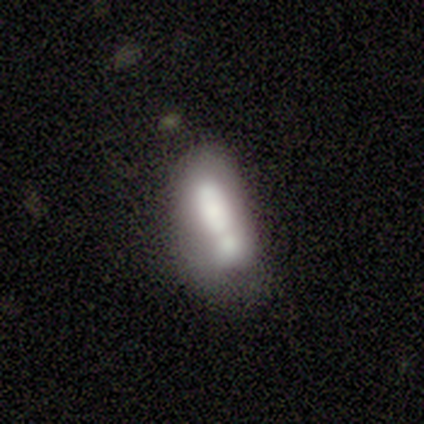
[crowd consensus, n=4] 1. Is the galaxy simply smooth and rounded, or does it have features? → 50% smooth (tied), 50% featured or disk (tied), 0% star or artifact.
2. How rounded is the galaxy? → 100% in between, 0% round, 0% cigar-shaped.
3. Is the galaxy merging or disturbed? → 50% merger, 25% minor disturbance, 25% major disturbance, 0% none.